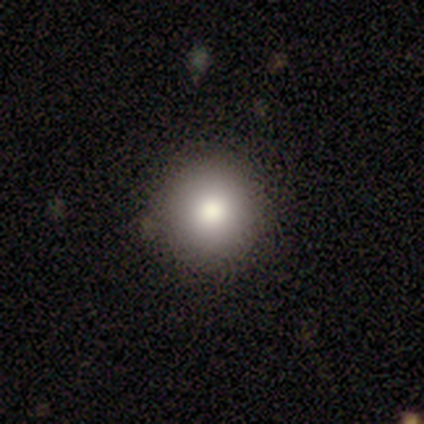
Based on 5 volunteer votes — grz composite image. It shows a smooth galaxy with no disk features (80%) that is round (100%). Merging: none (50%).